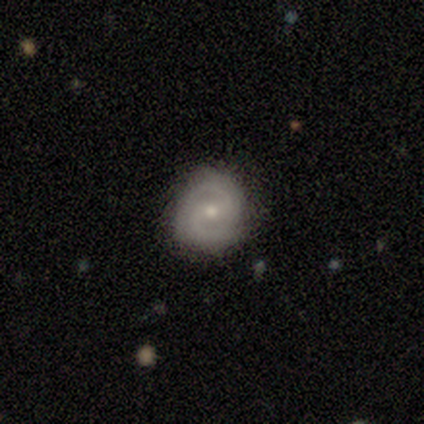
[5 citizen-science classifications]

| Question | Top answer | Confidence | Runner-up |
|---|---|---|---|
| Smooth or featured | featured or disk | 60% | smooth (40%) |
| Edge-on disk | no | 100% | — |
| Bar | weak | 67% | no (33%) |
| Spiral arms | yes | 100% | — |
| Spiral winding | medium | 67% | tight (33%) |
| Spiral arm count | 2 | 100% | — |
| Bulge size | small | 100% | — |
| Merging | none | 100% | — |